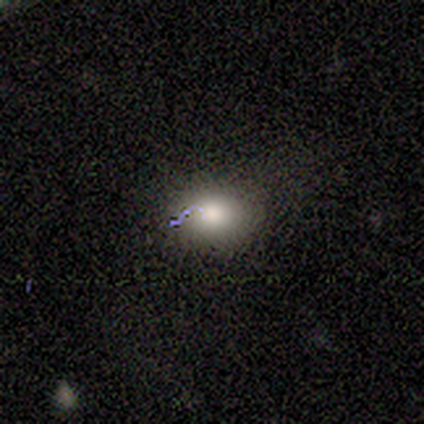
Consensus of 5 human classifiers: Volunteers were most divided on "how rounded" (2-way tie): round: 50%, in between: 50%, cigar-shaped: 0%; "merging" (2-way tie): none: 50%, minor disturbance: 50%, major disturbance: 0%, merger: 0%. More confident: smooth or featured — smooth (80%).